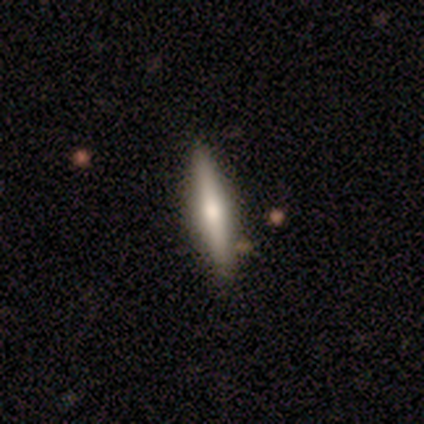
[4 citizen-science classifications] This is likely a smooth galaxy (75%). How rounded: clearly cigar-shaped (100%). Merging: clearly none (100%).